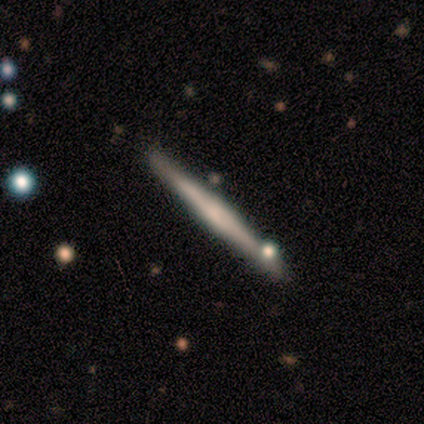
smooth-or-featured: featured or disk: 68% | smooth: 28% | star or artifact: 5%
  disk-edge-on: yes: 96% | no: 4%
    edge-on-bulge: rounded: 42% | none: 31% | boxy: 27%
  merging: none: 84% | minor disturbance: 13% | merger: 3% | major disturbance: 0%